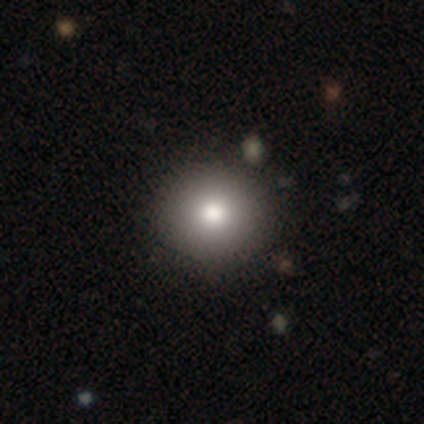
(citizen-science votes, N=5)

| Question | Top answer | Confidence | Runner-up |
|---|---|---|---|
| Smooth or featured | smooth | 100% | — |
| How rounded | round | 100% | — |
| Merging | none | 80% | merger (20%) |